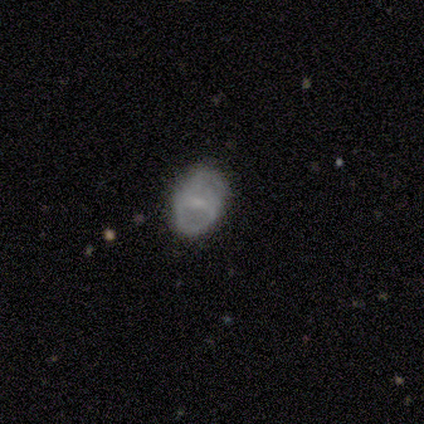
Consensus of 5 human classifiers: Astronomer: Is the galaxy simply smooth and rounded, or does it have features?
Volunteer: smooth — 60% (runner-up: featured or disk, 40%).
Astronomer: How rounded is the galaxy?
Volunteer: round — 100%.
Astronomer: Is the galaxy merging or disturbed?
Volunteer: none — 60% (runner-up: minor disturbance, 40%).